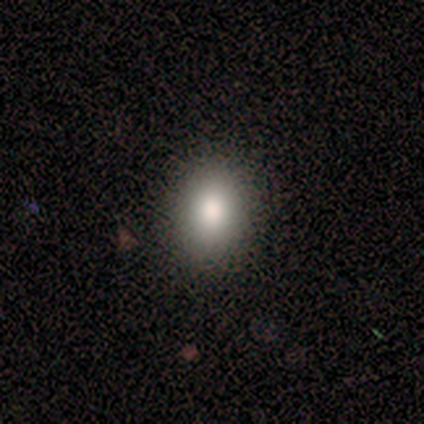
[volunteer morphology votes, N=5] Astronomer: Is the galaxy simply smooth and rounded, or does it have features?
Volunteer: smooth — 100%.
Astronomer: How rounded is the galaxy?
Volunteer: in between — 100%.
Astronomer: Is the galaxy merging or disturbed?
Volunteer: none — 100%.